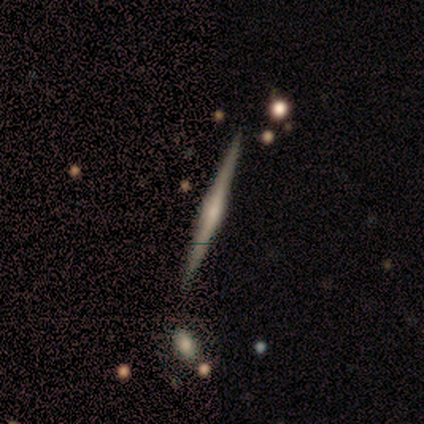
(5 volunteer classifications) Smooth or featured? featured or disk (80%)
Edge-on disk? yes (100%)
Edge-on bulge? rounded (100%)
Merging? none (100%)